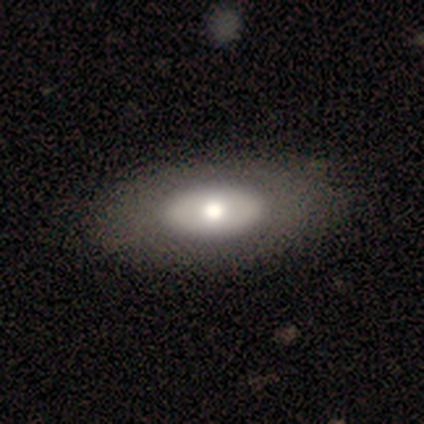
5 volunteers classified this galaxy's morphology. smooth_or_featured: smooth (p=1.00)
how_rounded: in between (p=0.80) [alt: round p=0.20]
merging: none (p=0.80) [alt: minor disturbance p=0.20]